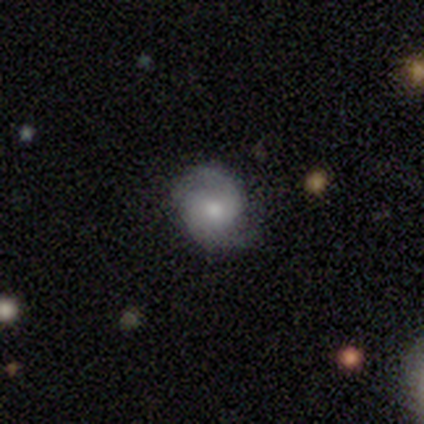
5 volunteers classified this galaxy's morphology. This appears to be a featured or disk galaxy (60%) with no bar (100%), 2 (100%) medium (67%) spiral arms (100%) and a moderate central bulge (67%). Merging: none (80%).